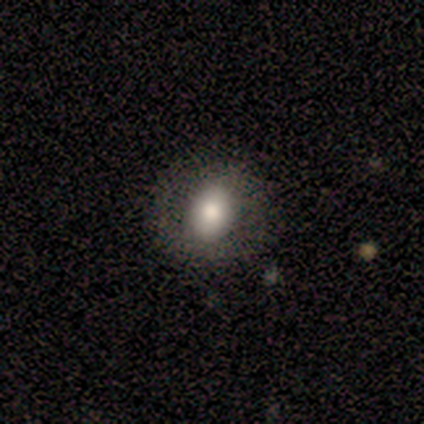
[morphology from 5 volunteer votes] This appears to be a smooth galaxy with no disk features (80%) that is round (50%). Merging: none (80%).